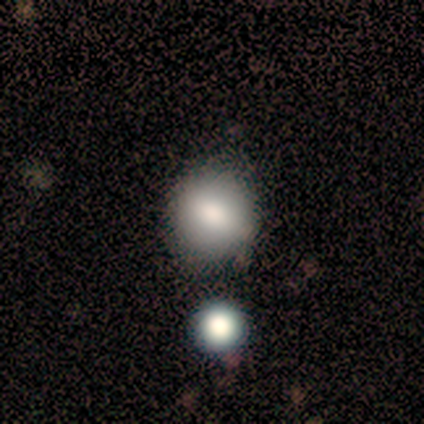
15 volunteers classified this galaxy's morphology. Overall: smooth (80%). How rounded: round (75%). Merging: none (85%).